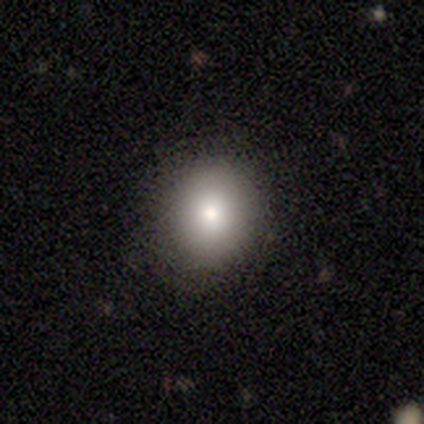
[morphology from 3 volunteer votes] smooth 100%, featured or disk 0%, star or artifact 0%. Down the decision tree: how rounded — round (100%); merging — none (100%).